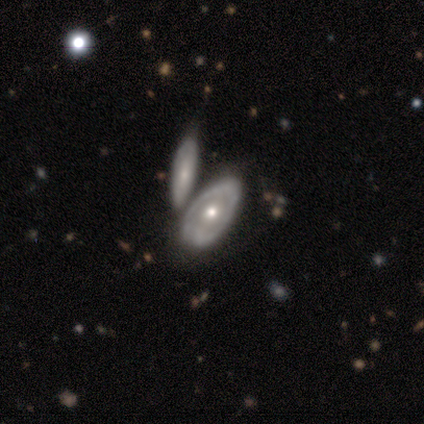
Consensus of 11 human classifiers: Overall: featured or disk (73%). Edge-on disk: no (88%). Bar: no (86%). Spiral arms: no (86%). Bulge size: moderate (71%). Merging: none (89%).